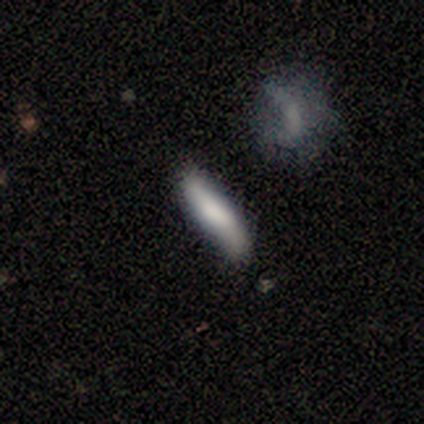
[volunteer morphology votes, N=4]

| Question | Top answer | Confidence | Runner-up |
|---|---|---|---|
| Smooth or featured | smooth | 50% | tied: featured or disk (50%) |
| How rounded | cigar-shaped | 100% | — |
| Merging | none | 75% | minor disturbance (25%) |